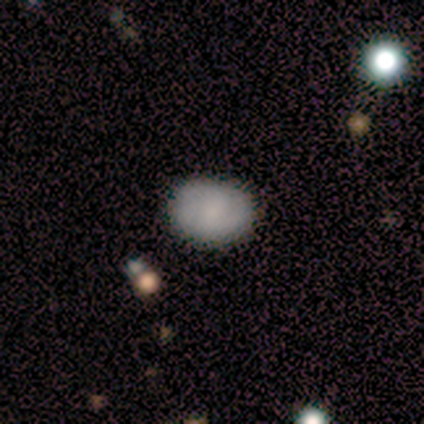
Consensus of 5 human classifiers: A smooth galaxy with no disk features (80%) that is round (50%, tied with in between). Merging: none (100%).